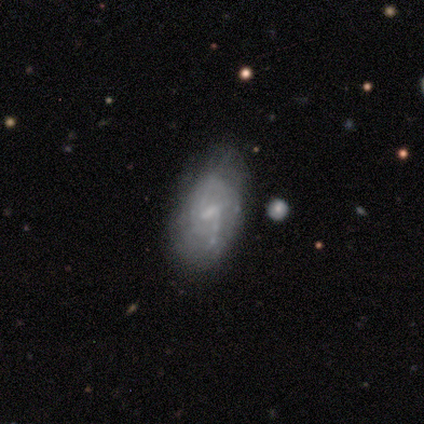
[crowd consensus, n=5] Smooth or featured: featured or disk — 80% (smooth — 20%)
Edge-on disk: no — 100%
Bar: weak — 75% (strong — 25%)
Spiral arms: yes — 100%
Spiral winding: loose — 75% (medium — 25%)
Spiral arm count: 2 — 75% (can't tell — 25%)
Bulge size: moderate — 50% (tied with small — 50%)
Merging: none — 100%